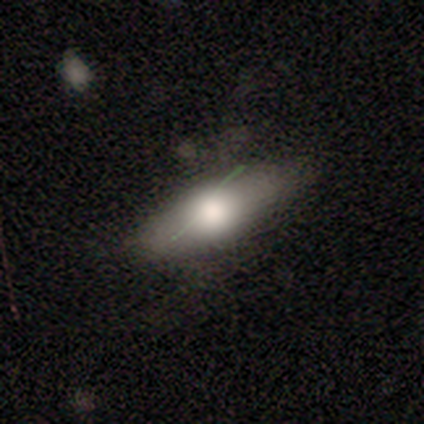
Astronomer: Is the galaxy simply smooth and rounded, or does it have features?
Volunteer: smooth — 80%.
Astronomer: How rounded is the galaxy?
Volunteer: in between — 75%.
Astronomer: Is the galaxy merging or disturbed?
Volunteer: none — 50%, tied with minor disturbance at 50%.